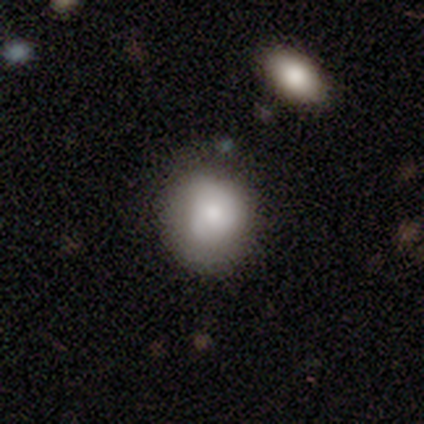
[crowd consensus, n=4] A smooth galaxy with no disk features (50%, tied with featured or disk) that is round (50%, tied with in between). Merging: minor disturbance (50%).